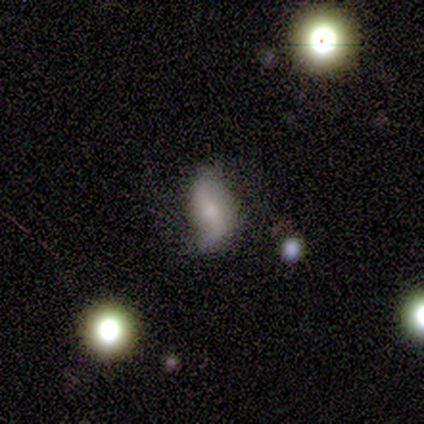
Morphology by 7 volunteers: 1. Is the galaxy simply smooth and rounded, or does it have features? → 57% smooth, 43% featured or disk, 0% star or artifact.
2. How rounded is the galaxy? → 100% in between, 0% round, 0% cigar-shaped.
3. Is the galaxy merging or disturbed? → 57% none, 43% minor disturbance, 0% major disturbance, 0% merger.